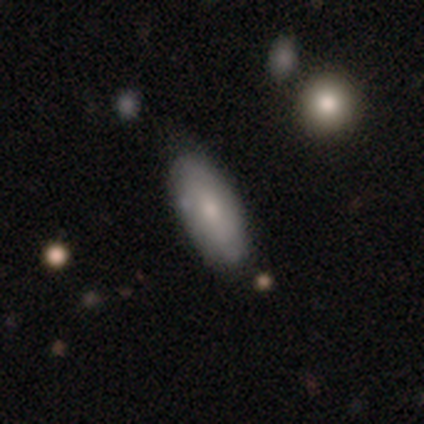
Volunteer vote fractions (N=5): smooth 80%, featured or disk 20%, star or artifact 0%. Down the decision tree: how rounded — in between (50%, tied with cigar-shaped); merging — none (60%).